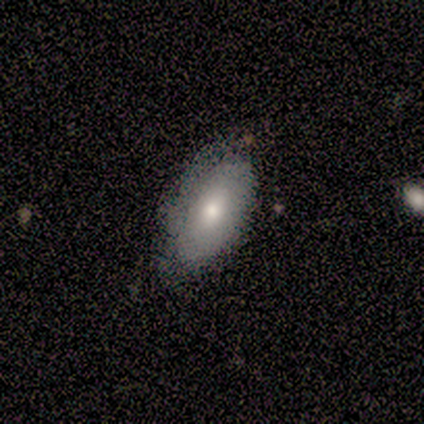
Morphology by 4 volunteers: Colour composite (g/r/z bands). It shows a smooth galaxy with no disk features (75%) that is in between round and cigar-shaped (100%). Merging: none (75%).